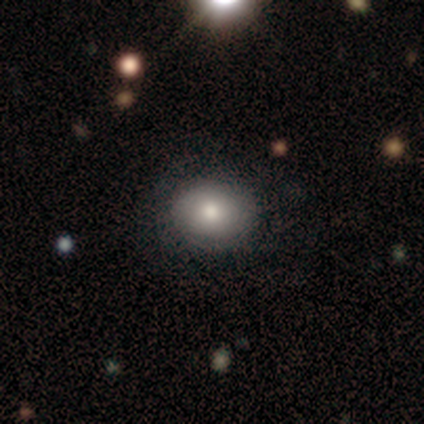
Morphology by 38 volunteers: This is likely a smooth galaxy (76%). How rounded: likely round (62%). Merging: likely none (78%).